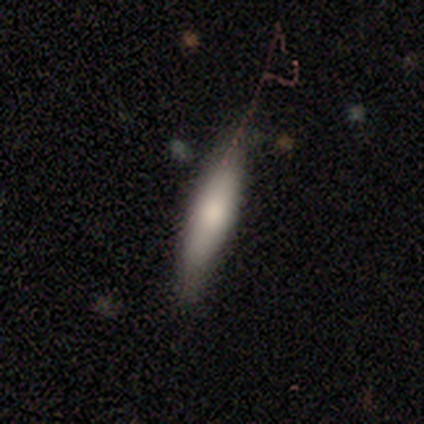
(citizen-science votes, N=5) smooth 80%, featured or disk 20%, star or artifact 0%. Down the decision tree: how rounded — cigar-shaped (75%); merging — none (60%).